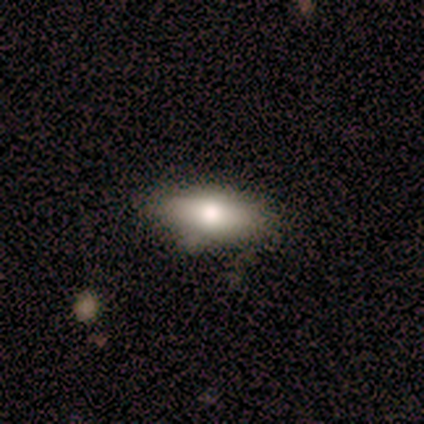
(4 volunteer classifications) This appears to be a smooth galaxy with no disk features (50%) that is in between round and cigar-shaped (50%, tied with cigar-shaped). Merging: minor disturbance (100%).